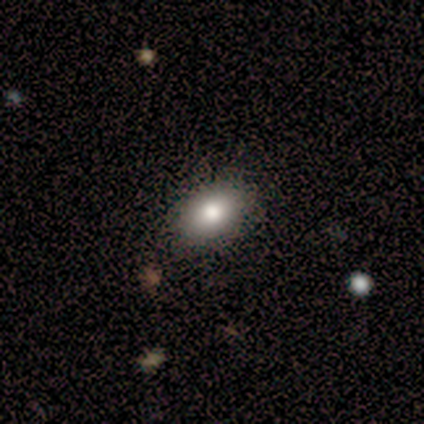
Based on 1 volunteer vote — A smooth galaxy with no disk features (100%) that is in between round and cigar-shaped (100%). Merging: none (100%).